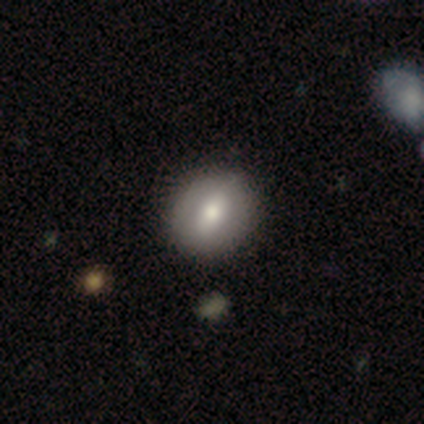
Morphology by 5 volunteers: Smooth or featured? 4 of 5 (80%) said smooth. How rounded? 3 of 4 (75%) said round. Merging? 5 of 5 (100%) said none.